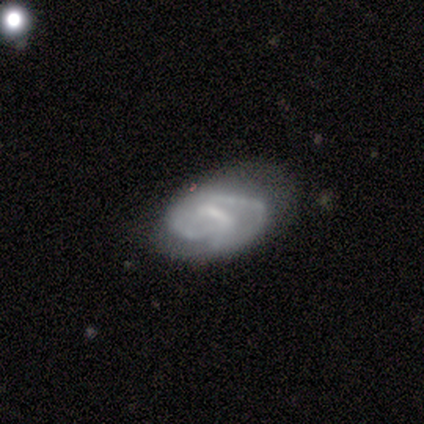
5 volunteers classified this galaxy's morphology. featured or disk 100%, smooth 0%, star or artifact 0%. Down the decision tree: edge-on disk — no (100%); bar — weak (60%); spiral arms — yes (100%); spiral arm count — 2 (80%); spiral winding — tight (60%); bulge size — small (40%, tied with none); merging — none (40%, tied with minor disturbance).